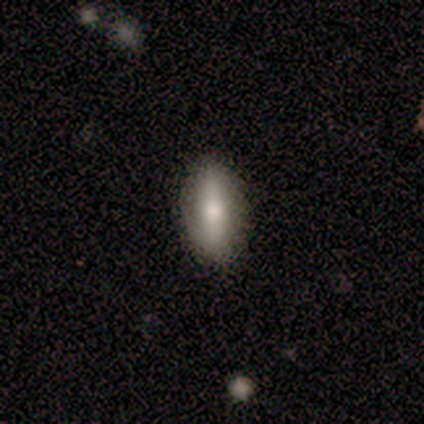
Volunteers were most divided on "how rounded": in between: 75%, round: 25%, cigar-shaped: 0%. More confident: smooth or featured — smooth (80%); merging — none (80%).